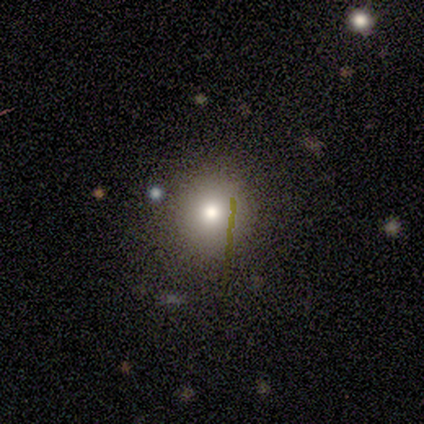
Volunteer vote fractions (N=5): Q: Smooth or featured?
A: smooth (60%); runner-up: featured or disk (40%)
Q: How rounded?
A: round (100%)
Q: Merging?
A: none (80%); runner-up: major disturbance (20%)